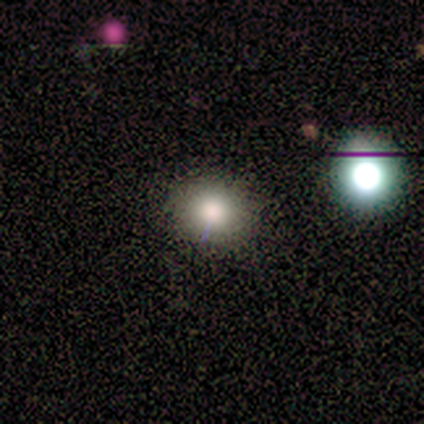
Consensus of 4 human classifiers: Overall: smooth (75%). How rounded: round (67%; in between 33%). Merging: none (67%; major disturbance 33%).